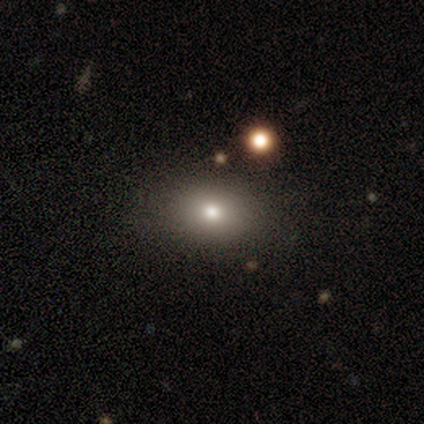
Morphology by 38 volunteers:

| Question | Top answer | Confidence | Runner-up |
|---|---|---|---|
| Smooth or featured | smooth | 74% | featured or disk (16%) |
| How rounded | in between | 82% | round (18%) |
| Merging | none | 88% | minor disturbance (9%) |